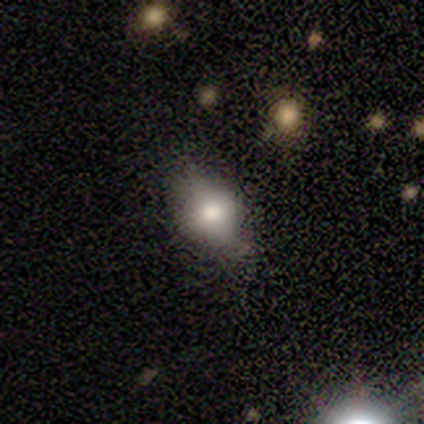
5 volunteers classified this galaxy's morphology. Smooth or featured: smooth — 60% (featured or disk — 40%)
How rounded: in between — 100%
Merging: minor disturbance — 60% (none — 20%)